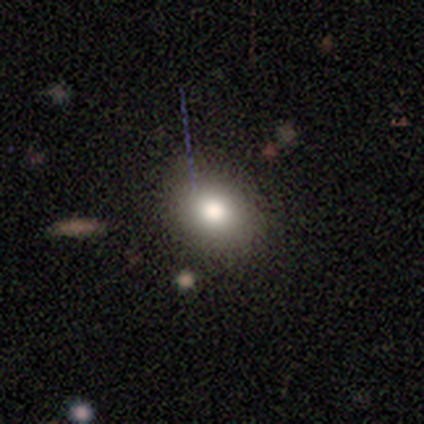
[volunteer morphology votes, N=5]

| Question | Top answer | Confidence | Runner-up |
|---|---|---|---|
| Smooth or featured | smooth | 60% | star or artifact (40%) |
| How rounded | round | 67% | in between (33%) |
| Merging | none | 67% | merger (33%) |